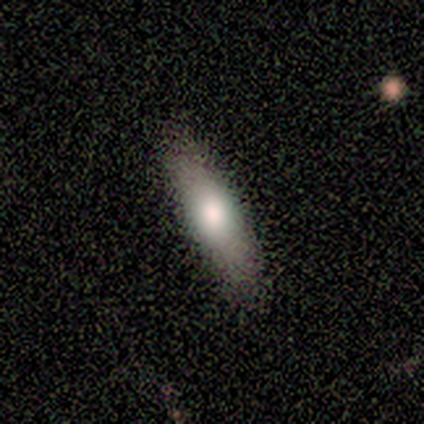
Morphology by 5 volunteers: Smooth or featured?
  - smooth: 80% *
  - featured or disk: 20%
  - star or artifact: 0%
How rounded?
  - in between: 50% * (tied)
  - cigar-shaped: 50% * (tied)
  - round: 0%
Merging?
  - none: 100% *
  - minor disturbance: 0%
  - major disturbance: 0%
  - merger: 0%